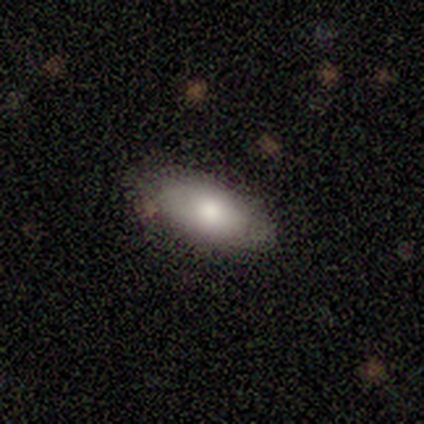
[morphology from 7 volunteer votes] Smooth or featured: smooth — 57% (featured or disk — 29%)
How rounded: in between — 100%
Merging: none — 83% (minor disturbance — 17%)